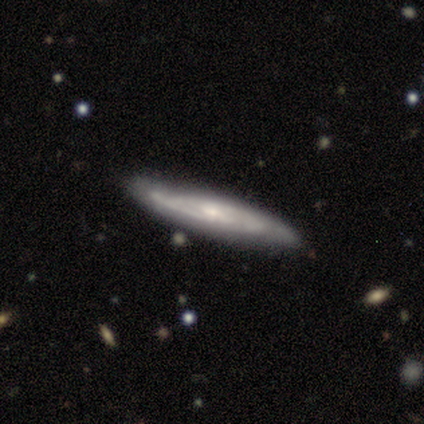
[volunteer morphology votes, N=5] A featured or disk galaxy (100%) with a weak bar (67%), tight (50%, tied with medium) spiral arms (67%) and a small central bulge (67%).

Vote fractions:
- Smooth or featured? featured or disk: 100% / smooth: 0% / star or artifact: 0%
- Edge-on disk? no: 60% / yes: 40%
- Bar? weak: 67% / strong: 33% / no: 0%
- Spiral arms? yes: 67% / no: 33%
- Spiral winding? tight: 50% (tied) / medium: 50% (tied) / loose: 0%
- Spiral arm count? can't tell: 100% / 1: 0% / 2: 0% / 3: 0% / 4: 0% / more than 4: 0%
- Bulge size? small: 67% / moderate: 33% / dominant: 0% / large: 0% / none: 0%
- Merging? none: 80% / minor disturbance: 20% / major disturbance: 0% / merger: 0%